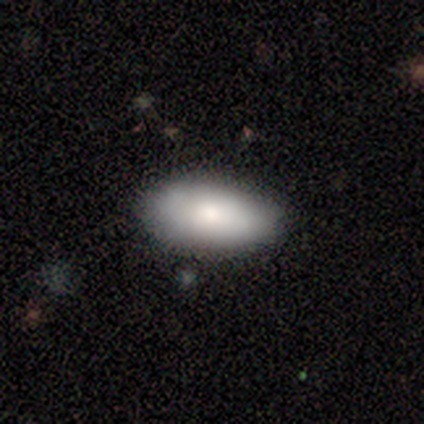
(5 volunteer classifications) This appears to be a smooth galaxy with no disk features (100%) that is in between round and cigar-shaped (100%). Merging: none (80%).